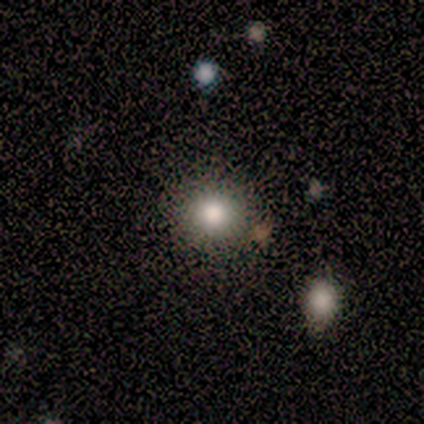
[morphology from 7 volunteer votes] Q: Smooth or featured?
A: smooth (71%); runner-up: star or artifact (29%)
Q: How rounded?
A: round (80%); runner-up: in between (20%)
Q: Merging?
A: none (100%)